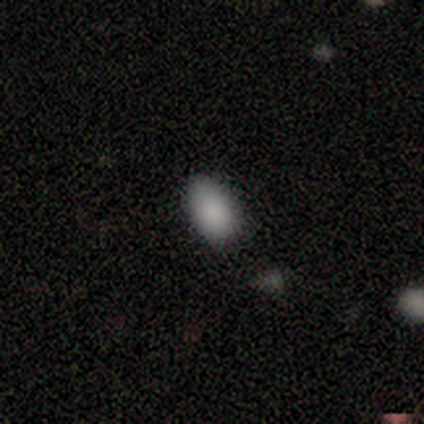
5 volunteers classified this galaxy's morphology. This appears to be a smooth galaxy with no disk features (40%, tied with star or artifact) that is in between round and cigar-shaped (50%, tied with cigar-shaped). Merging: none (67%).